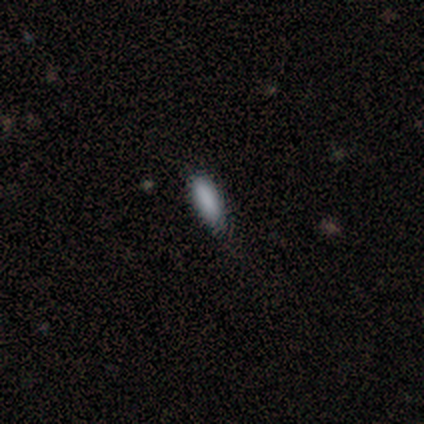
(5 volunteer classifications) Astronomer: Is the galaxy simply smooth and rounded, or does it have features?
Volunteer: smooth — 80%.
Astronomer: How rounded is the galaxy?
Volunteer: in between — 50%, tied with cigar-shaped at 50%.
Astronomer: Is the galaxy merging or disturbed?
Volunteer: none — 75%.